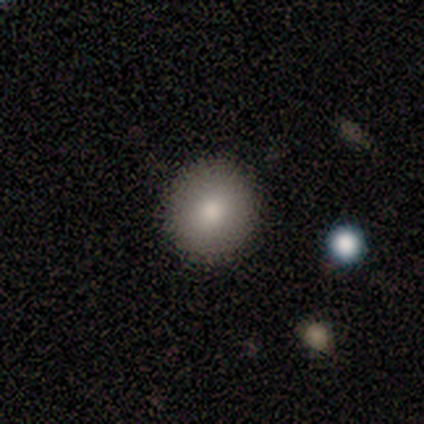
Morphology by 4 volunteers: Smooth or featured? 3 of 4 (75%) said smooth. How rounded? 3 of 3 (100%) said round. Merging? 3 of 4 (75%) said none.